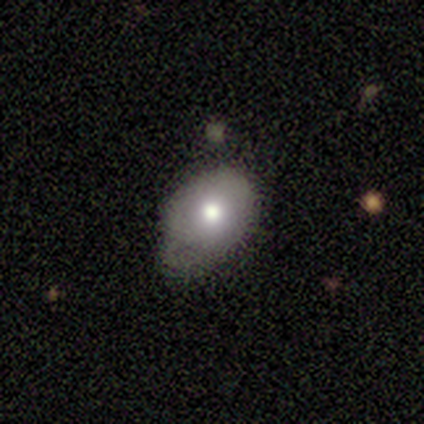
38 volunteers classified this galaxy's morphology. This is likely a smooth galaxy (71%). How rounded: likely in between (63%). Merging: possibly none (50%, tied with minor disturbance).